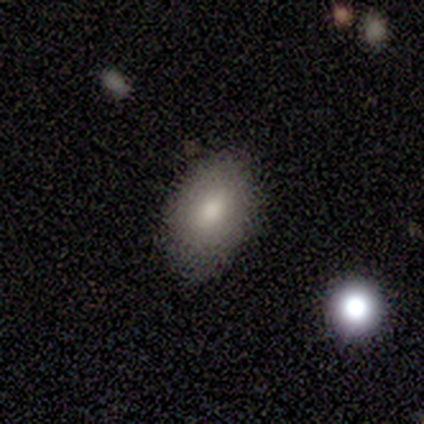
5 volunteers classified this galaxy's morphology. Smooth or featured? 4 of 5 (80%) said smooth. How rounded? 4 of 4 (100%) said in between. Merging? 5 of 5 (100%) said none.